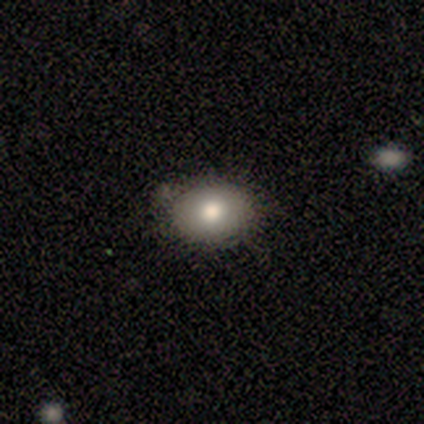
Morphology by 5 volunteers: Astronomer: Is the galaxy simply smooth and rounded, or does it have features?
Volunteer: smooth — 80%.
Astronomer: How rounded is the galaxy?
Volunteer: round — 50%, tied with in between at 50%.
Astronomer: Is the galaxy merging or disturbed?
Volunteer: none — 100%.